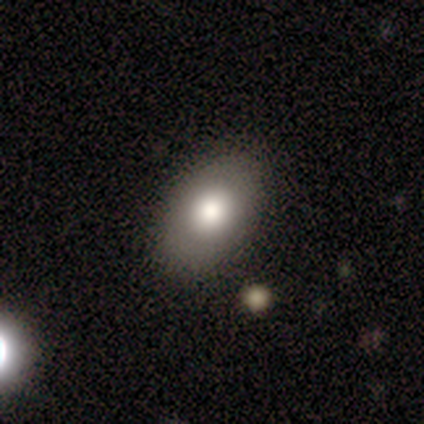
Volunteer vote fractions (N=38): Smooth or featured? smooth (63%)
How rounded? in between (88%)
Merging? none (91%)